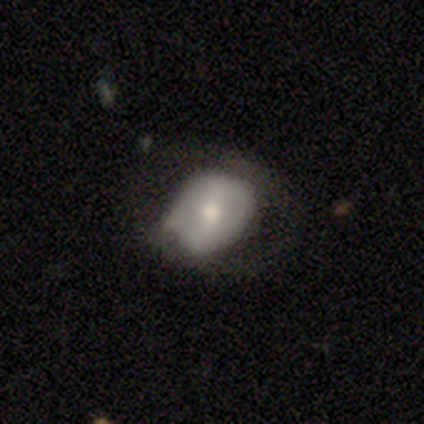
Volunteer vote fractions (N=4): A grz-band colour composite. It shows a smooth galaxy with no disk features (100%) that is in between round and cigar-shaped (100%). Merging: none (75%).